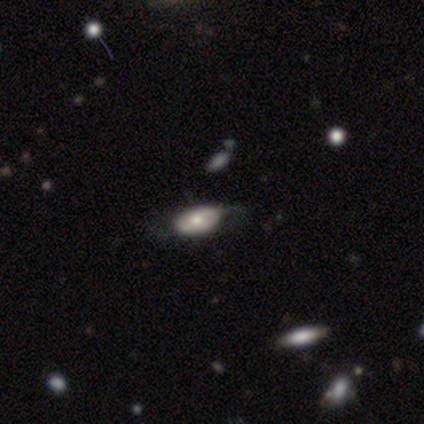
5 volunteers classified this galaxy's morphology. smooth 40% (tied), featured or disk 40% (tied), star or artifact 20%. Down the decision tree: how rounded — in between (100%); merging — minor disturbance (50%, tied with major disturbance).